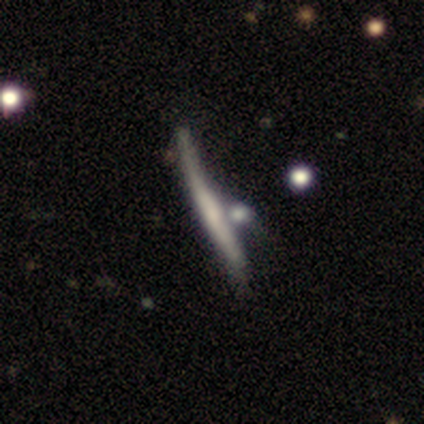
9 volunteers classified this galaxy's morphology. smooth-or-featured: featured or disk: 78% | smooth: 11% | star or artifact: 11%
  disk-edge-on: yes: 100% | no: 0%
    edge-on-bulge: none: 86% | boxy: 14% | rounded: 0%
  merging: none: 38% | minor disturbance: 25% | merger: 25% | major disturbance: 12%